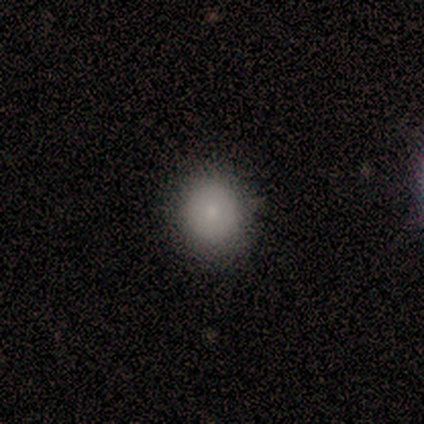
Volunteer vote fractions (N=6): Morphology: type=smooth (83%); roundness=round (80%); merging=none (83%).